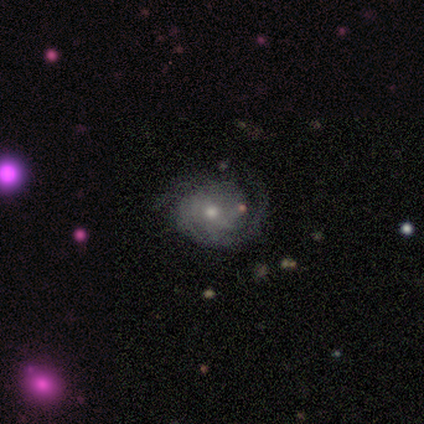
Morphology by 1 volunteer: Smooth or featured? 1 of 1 (100%) said featured or disk. Edge-on disk? 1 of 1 (100%) said yes. Edge-on bulge? 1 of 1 (100%) said none. Merging? 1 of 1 (100%) said minor disturbance.